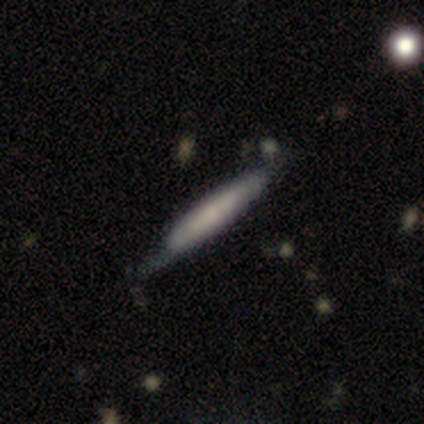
This appears to be a smooth galaxy with no disk features (100%) that is cigar-shaped (100%). Merging: none (60%).